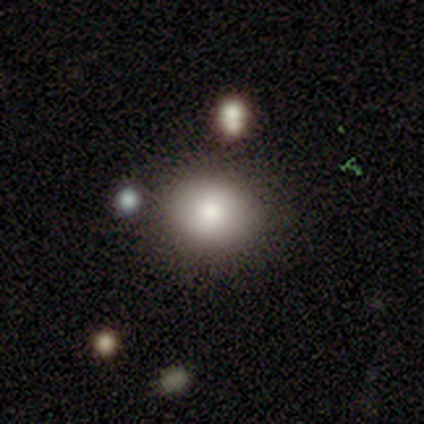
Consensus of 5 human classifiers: Smooth or featured? smooth (80%)
How rounded? in between (75%)
Merging? none (100%)